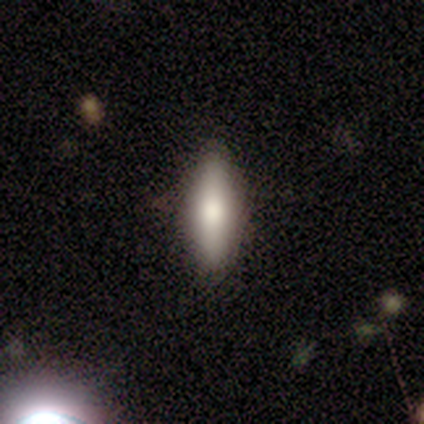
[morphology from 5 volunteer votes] smooth 60%, featured or disk 40%, star or artifact 0%. Down the decision tree: how rounded — in between (100%); merging — none (80%).